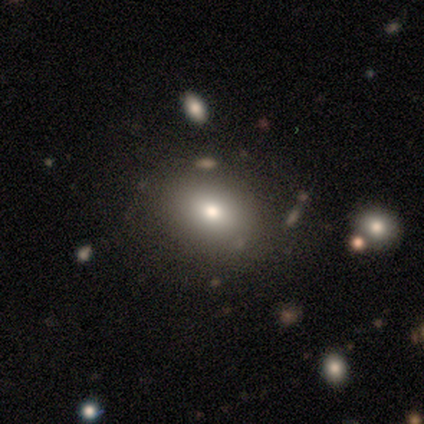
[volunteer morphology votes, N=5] Smooth or featured: smooth — 80% (star or artifact — 20%)
How rounded: round — 50% (tied with in between — 50%)
Merging: none — 75% (minor disturbance — 25%)